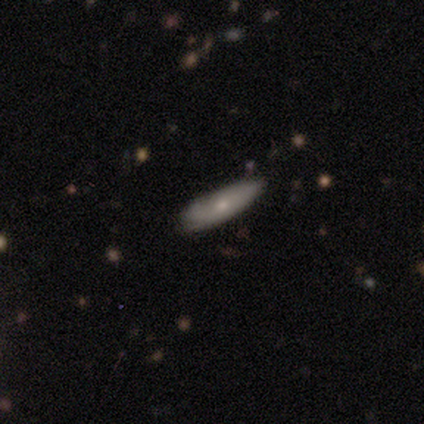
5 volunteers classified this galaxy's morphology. This is clearly a smooth galaxy (100%). How rounded: likely cigar-shaped (60%). Merging: clearly none (80%).